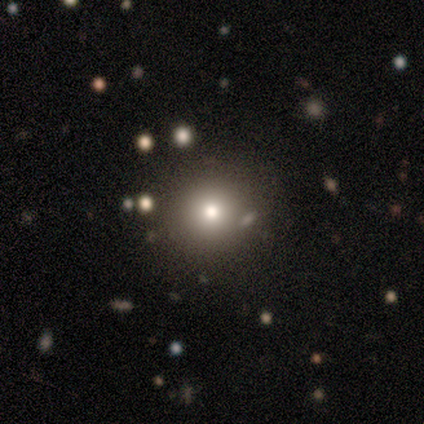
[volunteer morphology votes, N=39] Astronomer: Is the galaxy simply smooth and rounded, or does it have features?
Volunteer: smooth — 79%.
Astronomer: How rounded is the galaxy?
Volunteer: round — 90%.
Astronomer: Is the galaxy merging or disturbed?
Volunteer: none — 77%.